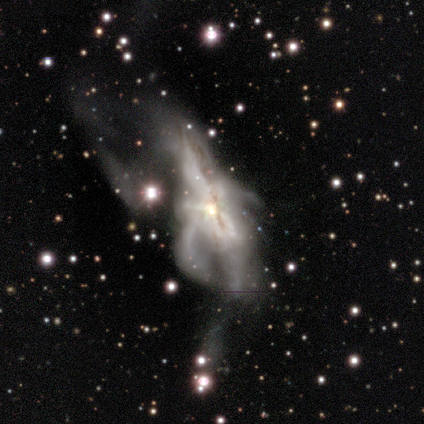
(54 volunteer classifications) Overall: featured or disk (80%). Edge-on disk: no (86%). Bar: no (86%). Spiral arms: no (68%; yes 32%). Bulge size: moderate (54%; small 27%). Merging: major disturbance (50%; merger 33%).